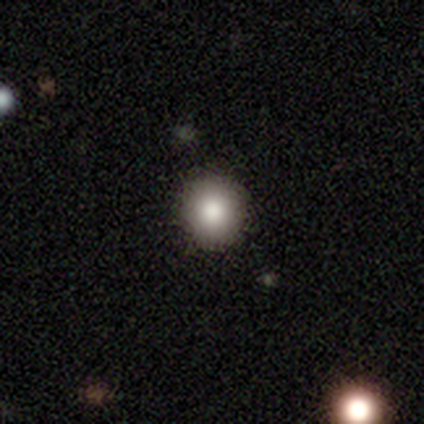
smooth 83%, star or artifact 17%, featured or disk 0%. Down the decision tree: how rounded — round (100%); merging — none (100%).